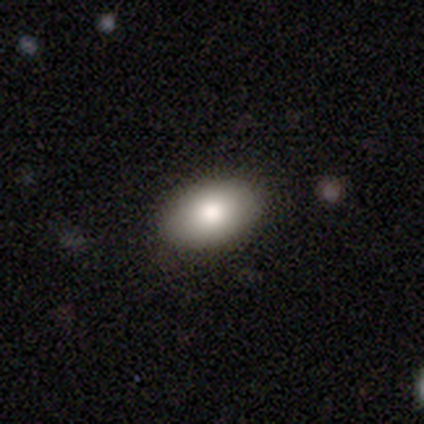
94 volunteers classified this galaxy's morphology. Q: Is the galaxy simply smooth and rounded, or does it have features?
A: smooth — 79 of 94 (84%).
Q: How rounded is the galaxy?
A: in between — 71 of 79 (90%).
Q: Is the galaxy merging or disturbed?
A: none — 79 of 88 (90%).